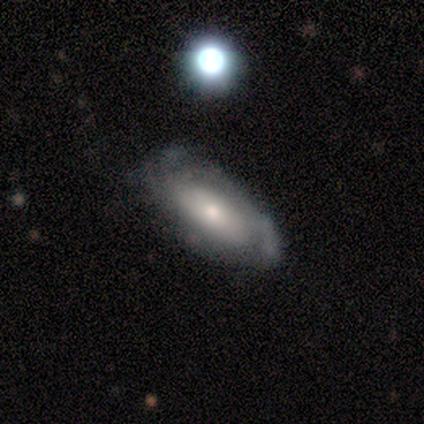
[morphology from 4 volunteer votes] smooth 75%, featured or disk 25%, star or artifact 0%. Down the decision tree: how rounded — in between (67%); merging — minor disturbance (50%).